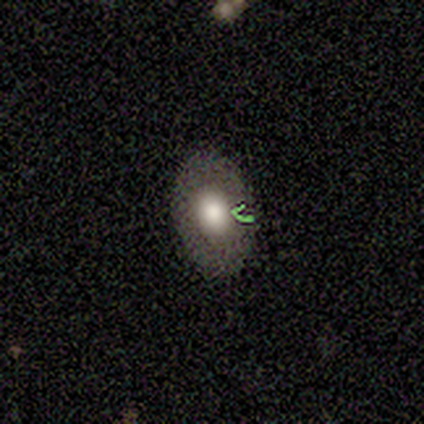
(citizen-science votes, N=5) Overall: smooth (80%). How rounded: in between (100%). Merging: none (60%; minor disturbance 40%).